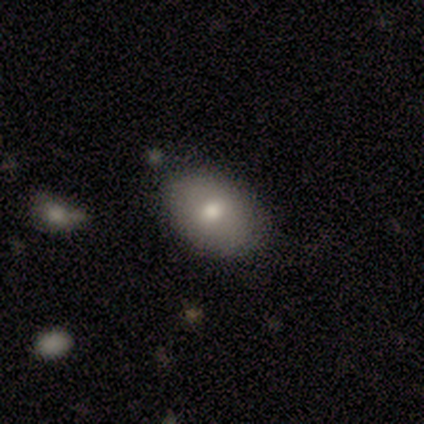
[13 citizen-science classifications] Smooth or featured: smooth — 92% (featured or disk — 8%)
How rounded: in between — 83% (round — 17%)
Merging: none — 92% (minor disturbance — 8%)